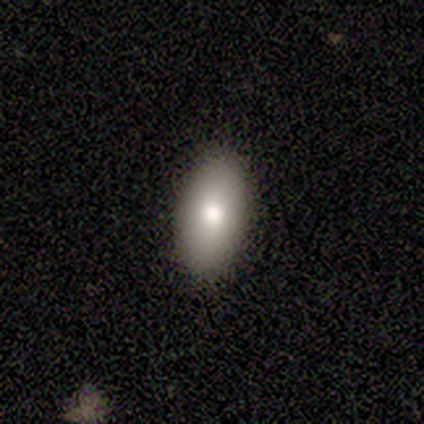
Smooth or featured: smooth — 75% (featured or disk — 25%)
How rounded: in between — 100%
Merging: none — 100%